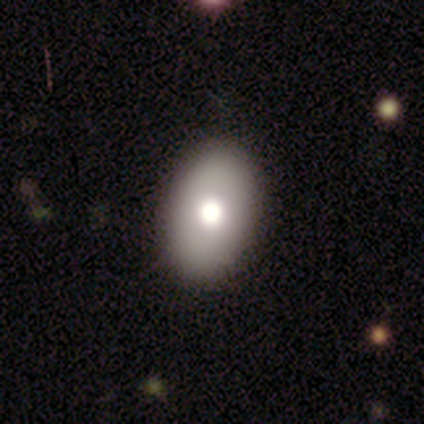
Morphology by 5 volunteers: Overall: smooth (60%; featured or disk 20%). How rounded: in between (100%). Merging: none (100%).